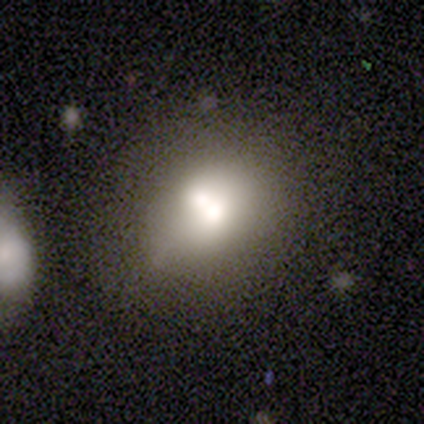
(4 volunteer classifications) A smooth galaxy with no disk features (50%, tied with featured or disk) that is round (50%, tied with in between).

Vote fractions:
- Smooth or featured? smooth: 50% (tied) / featured or disk: 50% (tied) / star or artifact: 0%
- How rounded? round: 50% (tied) / in between: 50% (tied) / cigar-shaped: 0%
- Merging? minor disturbance: 50% (tied) / merger: 50% (tied) / none: 0% / major disturbance: 0%